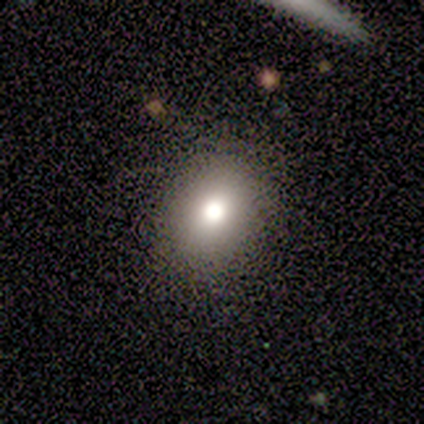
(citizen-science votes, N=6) This appears to be a smooth galaxy with no disk features (50%) that is in between round and cigar-shaped (100%). Merging: none (100%).